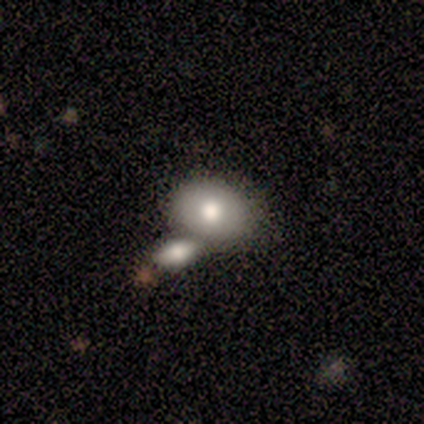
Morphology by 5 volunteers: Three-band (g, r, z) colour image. It shows a smooth galaxy with no disk features (80%) that is in between round and cigar-shaped (100%). Merging: merger (60%).